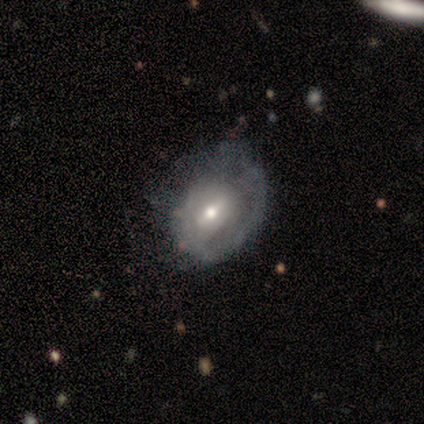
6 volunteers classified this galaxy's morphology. smooth-or-featured: featured or disk: 67% | smooth: 33% | star or artifact: 0%
  disk-edge-on: no: 100% | yes: 0%
    bar: weak: 50% | strong: 25% | no: 25%
    has-spiral-arms: yes: 75% | no: 25%
      spiral-winding: medium: 67% | tight: 33% | loose: 0%
      spiral-arm-count: 1: 100% | 2: 0% | 3: 0% | 4: 0% | more than 4: 0% | can't tell: 0%
    bulge-size: moderate: 100% | dominant: 0% | large: 0% | small: 0% | none: 0%
  merging: minor disturbance: 67% | major disturbance: 17% | merger: 17% | none: 0%